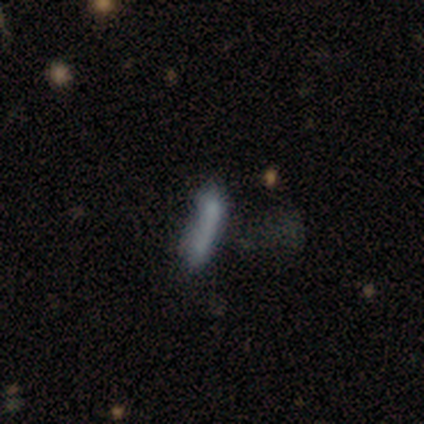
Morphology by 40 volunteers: Smooth or featured: smooth — 52% (featured or disk — 32%)
How rounded: cigar-shaped — 67% (in between — 33%)
Merging: none — 41% (major disturbance — 21%)